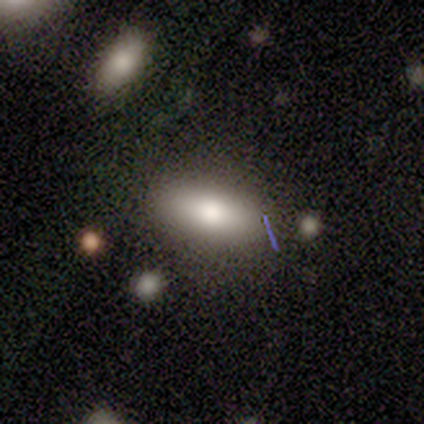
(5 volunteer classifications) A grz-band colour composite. It shows a smooth galaxy with no disk features (80%) that is in between round and cigar-shaped (100%). Merging: none (75%).